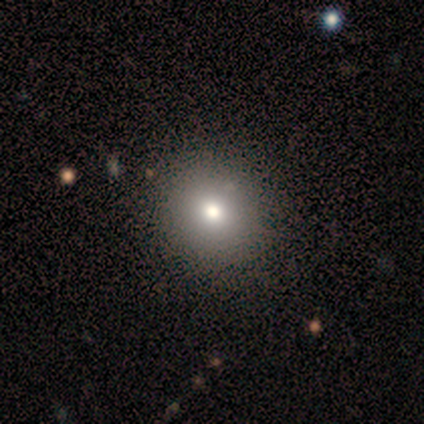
Volunteers were most divided on "smooth or featured": smooth: 60%, featured or disk: 20%, star or artifact: 20%. More confident: how rounded — round (100%); merging — none (100%).